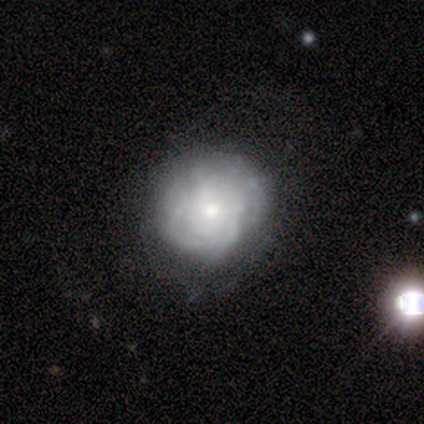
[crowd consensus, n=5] Smooth or featured?
  - featured or disk: 80% *
  - star or artifact: 20%
  - smooth: 0%
Edge-on disk?
  - no: 100% *
  - yes: 0%
Bar?
  - no: 100% *
  - strong: 0%
  - weak: 0%
Spiral arms?
  - yes: 100% *
  - no: 0%
Spiral winding?
  - tight: 75% *
  - medium: 25%
  - loose: 0%
Spiral arm count?
  - can't tell: 75% *
  - 4: 25%
  - 1: 0%
  - 2: 0%
  - 3: 0%
  - more than 4: 0%
Bulge size?
  - moderate: 50% * (tied)
  - small: 50% * (tied)
  - dominant: 0%
  - large: 0%
  - none: 0%
Merging?
  - none: 100% *
  - minor disturbance: 0%
  - major disturbance: 0%
  - merger: 0%